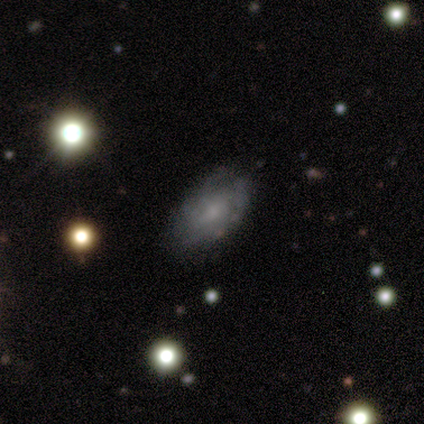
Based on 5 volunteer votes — Overall: smooth (40%, tied with featured or disk). How rounded: in between (100%). Merging: none (75%).